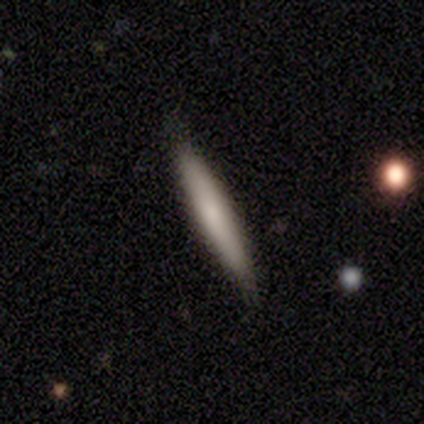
This appears to be a smooth galaxy with no disk features (80%) that is cigar-shaped (100%). Merging: none (100%).